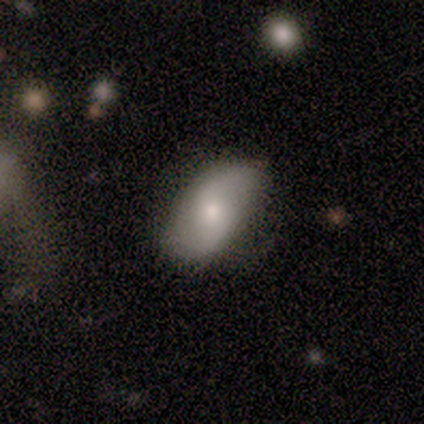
Smooth or featured: featured or disk — 100%
Edge-on disk: no — 100%
Bar: no — 80% (weak — 20%)
Spiral arms: yes — 100%
Spiral winding: loose — 60% (medium — 40%)
Spiral arm count: 2 — 80% (1 — 20%)
Bulge size: small — 80% (moderate — 20%)
Merging: none — 80% (minor disturbance — 20%)